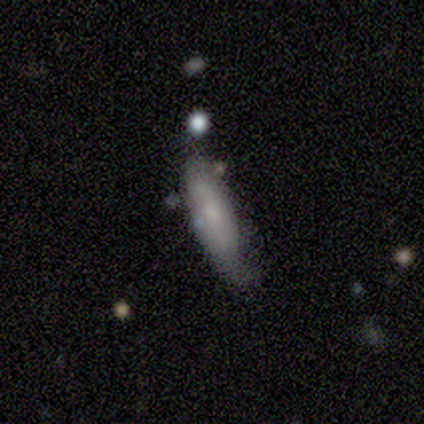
Smooth or featured? 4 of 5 (80%) said smooth. How rounded? 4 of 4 (100%) said cigar-shaped. Merging? 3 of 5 (60%) said minor disturbance.